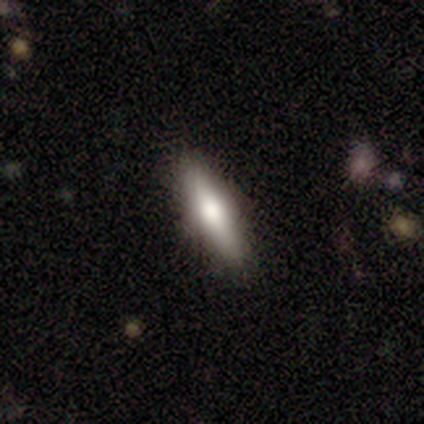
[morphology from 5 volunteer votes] Q: Smooth or featured?
A: smooth (60%); runner-up: featured or disk (40%)
Q: How rounded?
A: cigar-shaped (100%)
Q: Merging?
A: none (60%); runner-up: minor disturbance (40%)